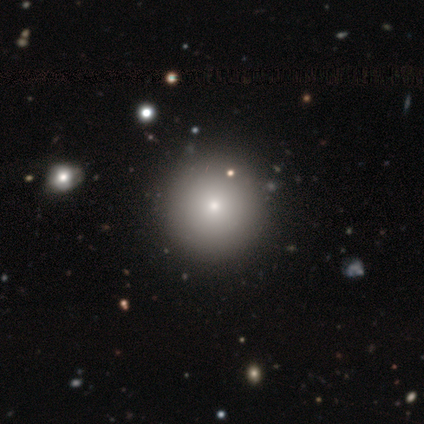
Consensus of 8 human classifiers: Overall: smooth (100%). How rounded: round (100%). Merging: none (100%).